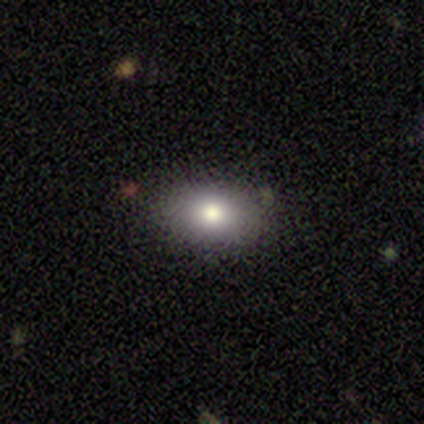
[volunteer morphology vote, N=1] Smooth or featured: smooth — 100%
How rounded: round — 100%
Merging: none — 100%